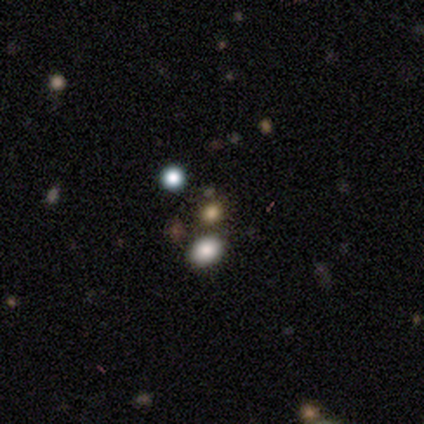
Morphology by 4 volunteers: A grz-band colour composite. It shows a star or artifact, not a galaxy (75%).